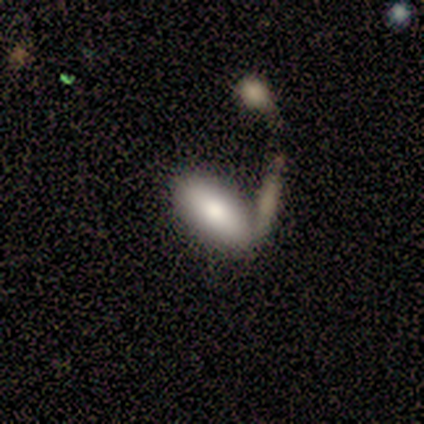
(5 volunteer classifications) This is clearly a smooth galaxy (100%). How rounded: clearly in between (80%). Merging: likely none (60%).